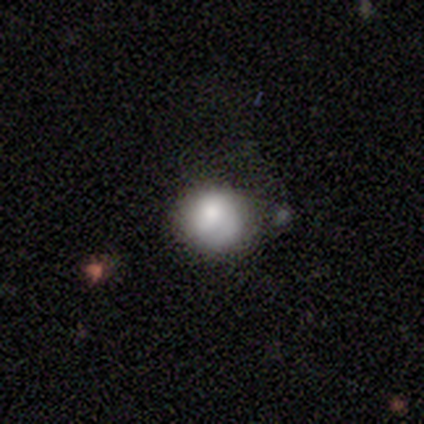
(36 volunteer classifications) A smooth galaxy with no disk features (86%) that is round (97%).

Vote fractions:
- Smooth or featured? smooth: 86% / featured or disk: 11% / star or artifact: 3%
- How rounded? round: 97% / in between: 3% / cigar-shaped: 0%
- Merging? none: 71% / minor disturbance: 23% / major disturbance: 6% / merger: 0%